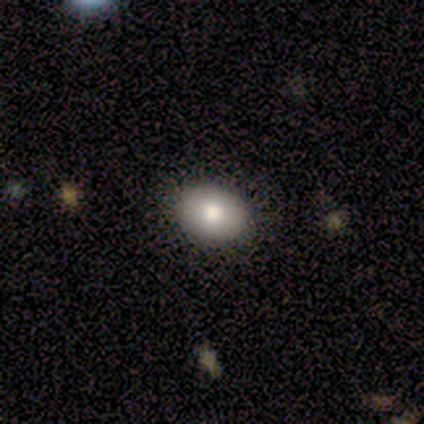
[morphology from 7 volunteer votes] A star or artifact, not a galaxy (43%).